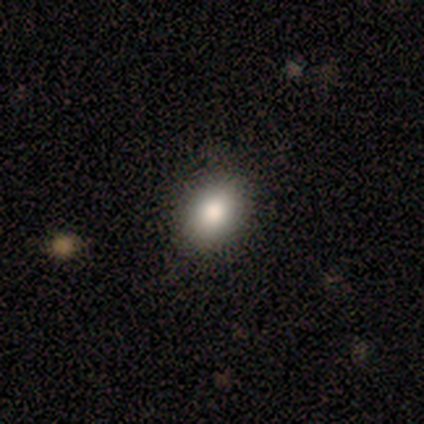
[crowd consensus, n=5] Overall: smooth (100%). How rounded: in between (80%). Merging: none (100%).